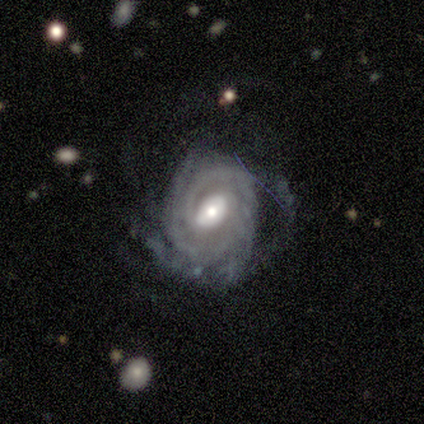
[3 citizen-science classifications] Smooth or featured: featured or disk — 100%
Edge-on disk: no — 100%
Bar: weak — 67% (no — 33%)
Spiral arms: yes — 100%
Spiral winding: tight — 100%
Spiral arm count: can't tell — 67% (3 — 33%)
Bulge size: large — 33% (tied with moderate — 33%; small — 33%)
Merging: none — 33% (tied with minor disturbance — 33%; major disturbance — 33%)